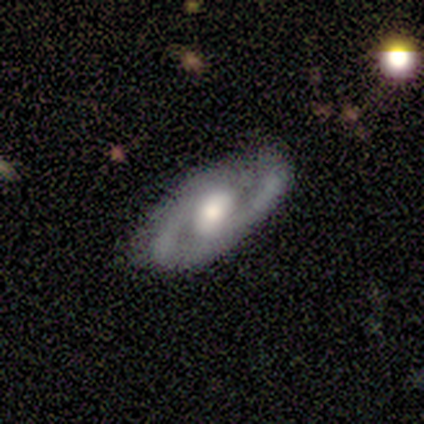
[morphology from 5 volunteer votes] smooth_or_featured: featured or disk (p=1.00)
disk_edge_on: no (p=1.00)
bar: weak (p=0.80) [alt: no p=0.20]
has_spiral_arms: yes (p=0.80) [alt: no p=0.20]
spiral_winding: tight (p=0.50) [alt: medium p=0.25]
spiral_arm_count: 2 (p=0.75) [alt: 1 p=0.25]
bulge_size: moderate (p=0.80) [alt: small p=0.20]
merging: none (p=1.00)